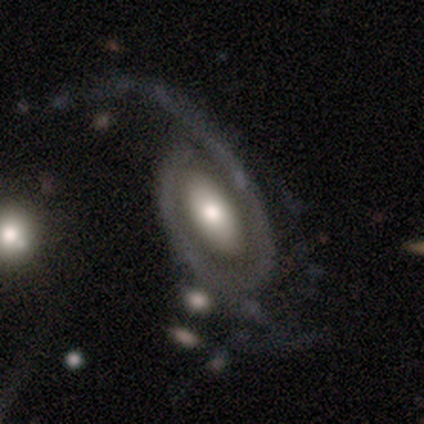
A featured or disk galaxy (74%) with no bar (73%), 2 (59%) loose (51%) spiral arms (66%) and a moderate central bulge (50%). Merging: major disturbance (46%).